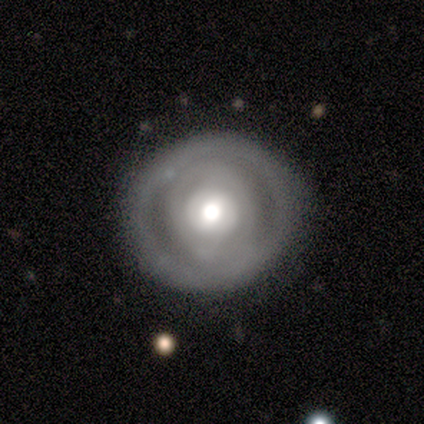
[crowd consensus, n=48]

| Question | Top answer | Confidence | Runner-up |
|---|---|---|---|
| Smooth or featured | featured or disk | 52% | smooth (44%) |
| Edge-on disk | no | 96% | yes (4%) |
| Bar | no | 88% | weak (12%) |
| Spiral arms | no | 75% | yes (25%) |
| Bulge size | moderate | 67% | large (29%) |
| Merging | none | 83% | minor disturbance (11%) |